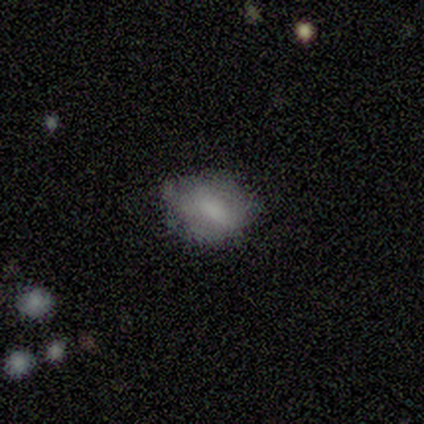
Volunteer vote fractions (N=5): Smooth or featured?
  - smooth: 80% *
  - star or artifact: 20%
  - featured or disk: 0%
How rounded?
  - in between: 75% *
  - round: 25%
  - cigar-shaped: 0%
Merging?
  - none: 75% *
  - minor disturbance: 25%
  - major disturbance: 0%
  - merger: 0%